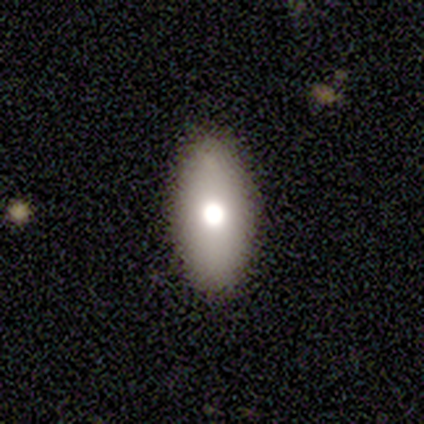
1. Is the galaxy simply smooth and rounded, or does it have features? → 80% smooth, 20% star or artifact, 0% featured or disk.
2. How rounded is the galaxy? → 100% in between, 0% round, 0% cigar-shaped.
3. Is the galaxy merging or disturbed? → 100% none, 0% minor disturbance, 0% major disturbance, 0% merger.